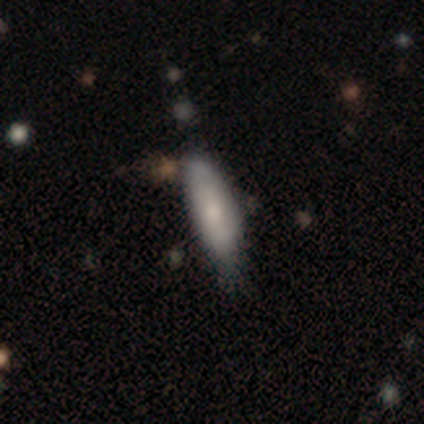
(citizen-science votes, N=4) Q: Smooth or featured?
A: smooth (100%)
Q: How rounded?
A: cigar-shaped (75%); runner-up: in between (25%)
Q: Merging?
A: none (100%)